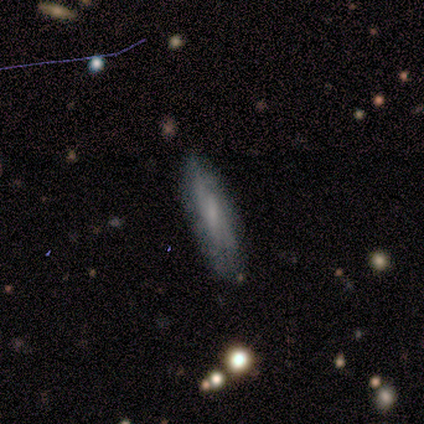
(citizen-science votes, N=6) Overall: smooth (50%; featured or disk 33%). How rounded: cigar-shaped (100%). Merging: none (60%; minor disturbance 40%).